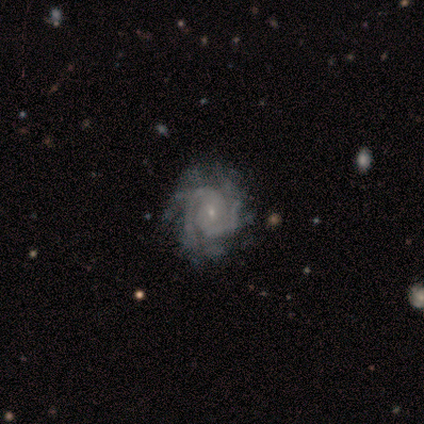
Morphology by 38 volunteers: Volunteers were most divided on "spiral arm count": 2: 44%, 3: 25%, 4: 11%, can't tell: 11%, more than 4: 8%, 1: 0%. More confident: edge-on disk — no (100%); smooth or featured — featured or disk (97%); spiral arms — yes (97%); bulge size — small (76%); bar — no (65%); spiral winding — tight (64%); merging — none (53%).